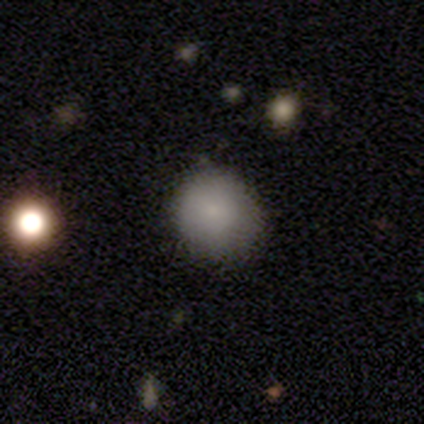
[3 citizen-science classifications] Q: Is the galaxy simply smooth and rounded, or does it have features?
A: smooth — 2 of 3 (67%).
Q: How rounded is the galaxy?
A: round — 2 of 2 (100%).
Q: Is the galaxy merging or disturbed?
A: none — 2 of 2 (100%).